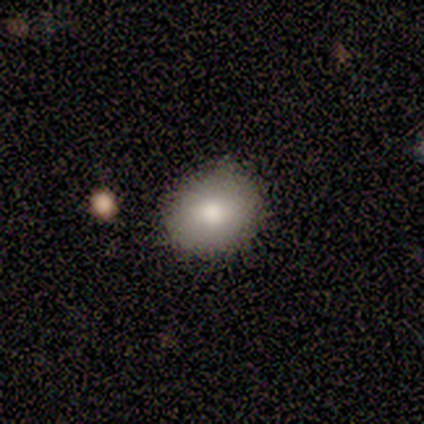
A smooth galaxy with no disk features (80%) that is round (100%).

Vote fractions:
- Smooth or featured? smooth: 80% / featured or disk: 20% / star or artifact: 0%
- How rounded? round: 100% / in between: 0% / cigar-shaped: 0%
- Merging? none: 100% / minor disturbance: 0% / major disturbance: 0% / merger: 0%